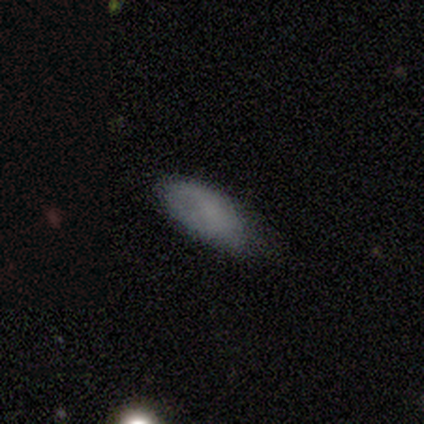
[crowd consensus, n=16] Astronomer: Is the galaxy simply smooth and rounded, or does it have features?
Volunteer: smooth — 81%.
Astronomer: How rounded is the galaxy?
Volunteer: in between — 92%.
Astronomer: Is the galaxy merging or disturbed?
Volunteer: none — 71%.